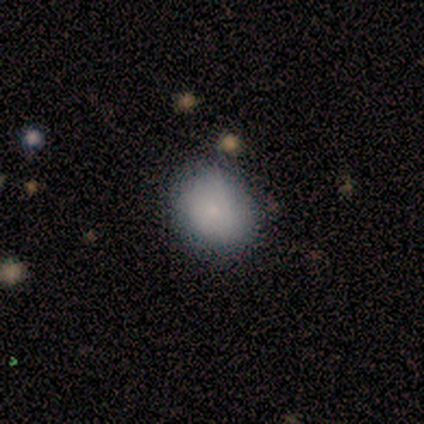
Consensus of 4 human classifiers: A smooth galaxy with no disk features (75%) that is round (67%).

Vote fractions:
- Smooth or featured? smooth: 75% / featured or disk: 25% / star or artifact: 0%
- How rounded? round: 67% / in between: 33% / cigar-shaped: 0%
- Merging? none: 75% / minor disturbance: 25% / major disturbance: 0% / merger: 0%